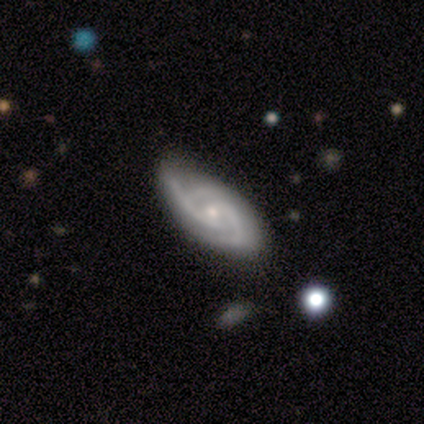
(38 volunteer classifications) Q: Smooth or featured?
A: featured or disk (76%); runner-up: star or artifact (16%)
Q: Edge-on disk?
A: no (83%); runner-up: yes (17%)
Q: Bar?
A: no (75%); runner-up: weak (21%)
Q: Spiral arms?
A: yes (96%); runner-up: no (4%)
Q: Spiral winding?
A: medium (52%); runner-up: tight (35%)
Q: Spiral arm count?
A: 3 (70%); runner-up: 2 (26%)
Q: Bulge size?
A: small (75%); runner-up: moderate (21%)
Q: Merging?
A: none (59%); runner-up: minor disturbance (28%)